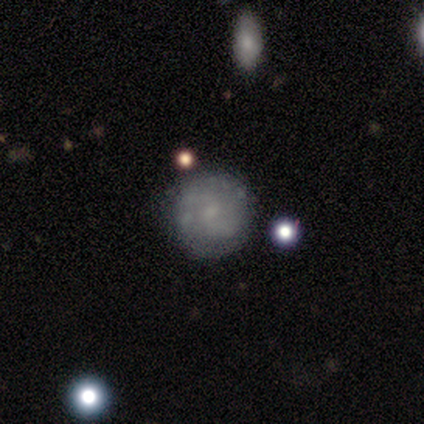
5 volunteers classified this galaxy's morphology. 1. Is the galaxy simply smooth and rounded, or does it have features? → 60% featured or disk, 40% smooth, 0% star or artifact.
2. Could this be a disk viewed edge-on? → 100% no, 0% yes.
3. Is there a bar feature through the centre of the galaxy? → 67% no, 33% weak, 0% strong.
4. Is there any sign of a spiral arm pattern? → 67% yes, 33% no.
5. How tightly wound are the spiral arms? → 100% loose, 0% tight, 0% medium.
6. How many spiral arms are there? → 100% 2, 0% 1, 0% 3, 0% 4, 0% more than 4, 0% can't tell.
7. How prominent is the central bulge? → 67% none, 33% small, 0% dominant, 0% large, 0% moderate.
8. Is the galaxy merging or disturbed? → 100% none, 0% minor disturbance, 0% major disturbance, 0% merger.